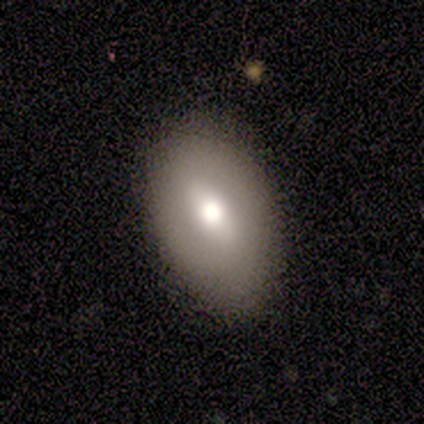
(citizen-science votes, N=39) Overall: smooth (72%). How rounded: in between (82%). Merging: none (63%).